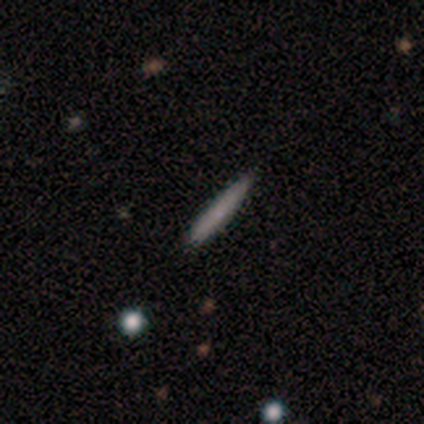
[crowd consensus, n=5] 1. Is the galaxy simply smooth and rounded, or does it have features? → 80% smooth, 20% featured or disk, 0% star or artifact.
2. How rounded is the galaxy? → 100% cigar-shaped, 0% round, 0% in between.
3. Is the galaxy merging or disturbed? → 100% none, 0% minor disturbance, 0% major disturbance, 0% merger.